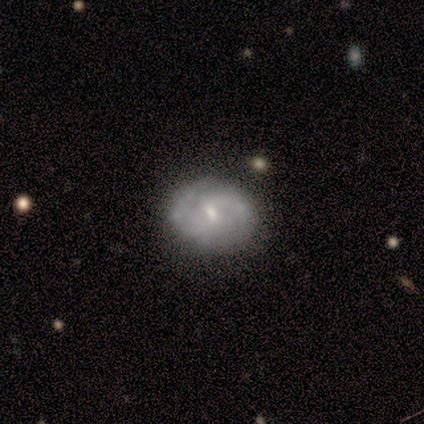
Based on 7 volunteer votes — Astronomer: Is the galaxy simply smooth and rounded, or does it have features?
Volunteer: featured or disk — 100%.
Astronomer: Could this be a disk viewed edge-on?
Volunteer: no — 100%.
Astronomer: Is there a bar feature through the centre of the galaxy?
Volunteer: weak — 71%.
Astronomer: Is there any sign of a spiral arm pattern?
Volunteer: yes — 100%.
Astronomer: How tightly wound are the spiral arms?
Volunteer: tight — 43%, tied with medium at 43%.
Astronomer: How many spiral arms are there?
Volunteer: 2 — 86%.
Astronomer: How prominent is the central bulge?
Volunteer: small — 71%.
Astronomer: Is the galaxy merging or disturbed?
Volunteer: none — 86%.